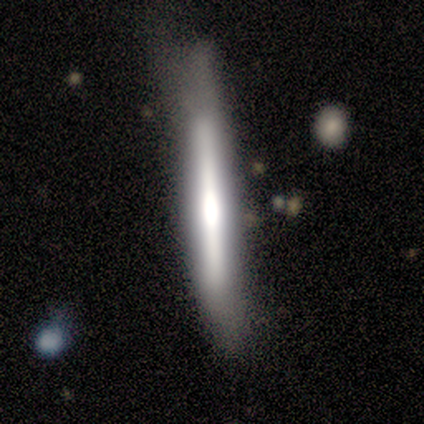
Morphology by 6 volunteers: Overall: featured or disk (100%). Edge-on disk: yes (83%). Edge-on bulge: rounded (80%). Merging: minor disturbance (50%; none 33%).